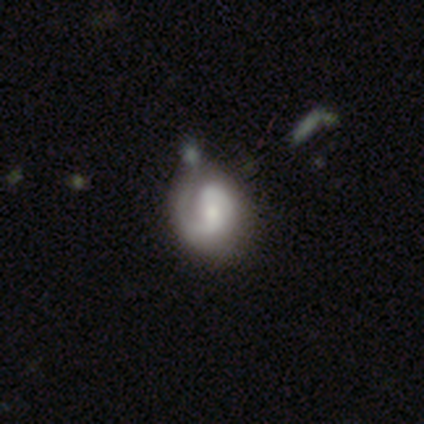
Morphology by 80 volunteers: Smooth or featured?
  - featured or disk: 82% *
  - smooth: 15%
  - star or artifact: 2%
Edge-on disk?
  - no: 98% *
  - yes: 2%
Bar?
  - weak: 48% *
  - no: 46%
  - strong: 6%
Spiral arms?
  - yes: 86% *
  - no: 14%
Spiral winding?
  - tight: 46% *
  - medium: 39%
  - loose: 14%
Spiral arm count?
  - 2: 75% *
  - 1: 18%
  - can't tell: 5%
  - 3: 2%
  - 4: 0%
  - more than 4: 0%
Bulge size?
  - small: 43% *
  - moderate: 42%
  - large: 6%
  - none: 6%
  - dominant: 3%
Merging?
  - none: 35% *
  - minor disturbance: 14%
  - merger: 9%
  - major disturbance: 1%